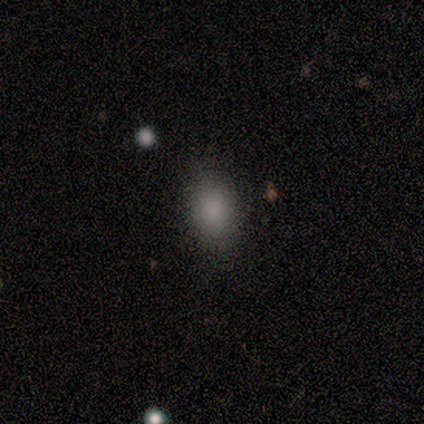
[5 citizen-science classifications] This appears to be a smooth galaxy with no disk features (60%) that is round (33%, tied with in between and cigar-shaped). Merging: none (80%).